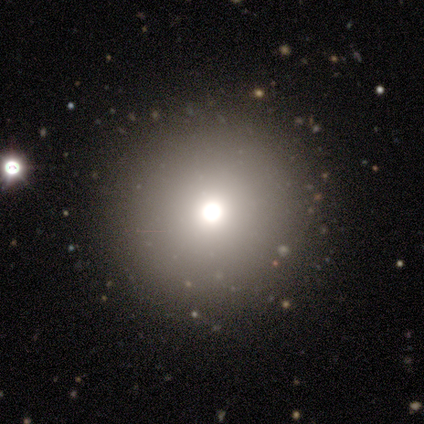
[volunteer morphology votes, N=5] This is likely a featured or disk galaxy (60%). It is clearly not viewed edge-on (100%). Bar: clearly no (100%). Spiral arm pattern: clearly no (100%). Central bulge: likely moderate (67%). Merging: clearly none (100%).